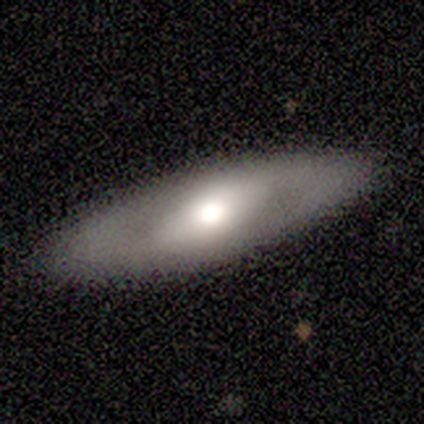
A featured or disk galaxy (100%) viewed edge-on (50%, tied with no) with a rounded central bulge (100%).

Vote fractions:
- Smooth or featured? featured or disk: 100% / smooth: 0% / star or artifact: 0%
- Edge-on disk? yes: 50% (tied) / no: 50% (tied)
- Edge-on bulge? rounded: 100% / boxy: 0% / none: 0%
- Merging? none: 75% / minor disturbance: 25% / major disturbance: 0% / merger: 0%